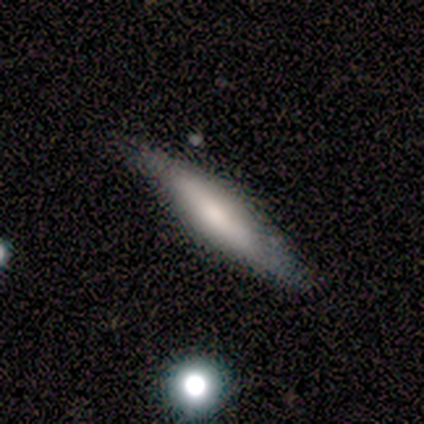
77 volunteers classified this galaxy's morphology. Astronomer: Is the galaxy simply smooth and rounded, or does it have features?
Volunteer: smooth — 55% (runner-up: featured or disk, 40%).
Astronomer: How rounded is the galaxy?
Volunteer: cigar-shaped — 71%.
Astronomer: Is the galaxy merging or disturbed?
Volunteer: none — 75%.